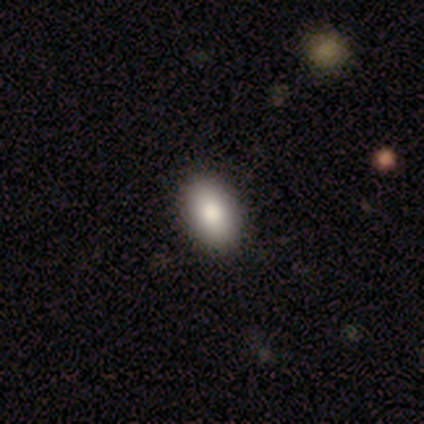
Overall: smooth (86%). How rounded: in between (100%). Merging: none (86%).